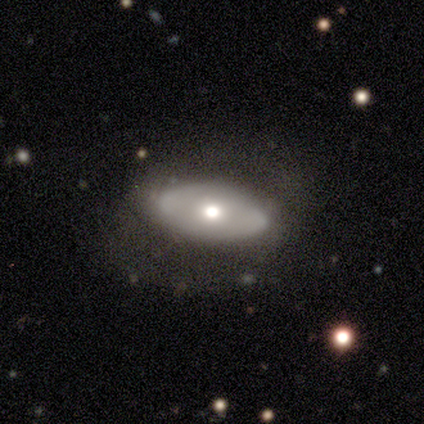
Q: Smooth or featured?
A: smooth (100%)
Q: How rounded?
A: in between (100%)
Q: Merging?
A: none (67%); runner-up: minor disturbance (33%)